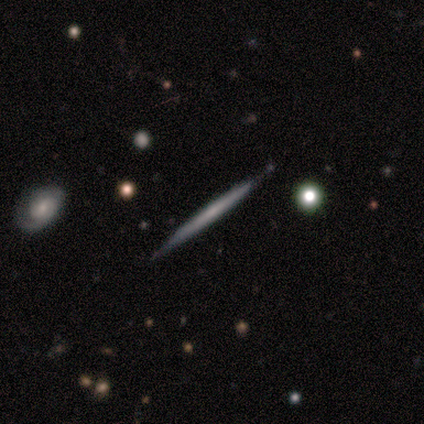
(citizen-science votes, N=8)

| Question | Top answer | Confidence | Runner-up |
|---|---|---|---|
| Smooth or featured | featured or disk | 75% | smooth (25%) |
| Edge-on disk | yes | 100% | — |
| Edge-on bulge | none | 100% | — |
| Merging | none | 100% | — |